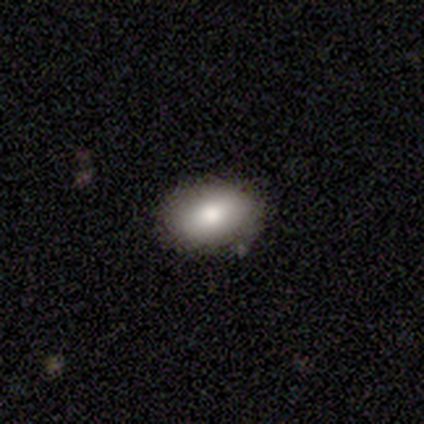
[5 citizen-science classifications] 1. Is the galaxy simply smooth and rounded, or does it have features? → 100% smooth, 0% featured or disk, 0% star or artifact.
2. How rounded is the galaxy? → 100% in between, 0% round, 0% cigar-shaped.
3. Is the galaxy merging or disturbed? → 80% none, 20% minor disturbance, 0% major disturbance, 0% merger.